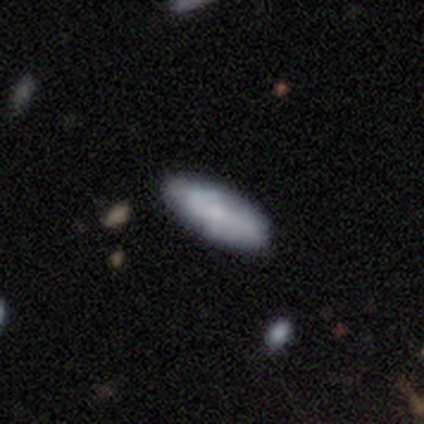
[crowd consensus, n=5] Overall: smooth (60%; featured or disk 40%). How rounded: in between (67%; cigar-shaped 33%). Merging: none (100%).